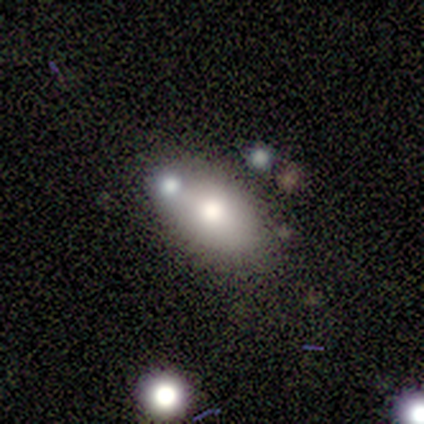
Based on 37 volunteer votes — Smooth or featured?
  - smooth: 76% *
  - featured or disk: 19%
  - star or artifact: 5%
How rounded?
  - in between: 89% *
  - round: 11%
  - cigar-shaped: 0%
Merging?
  - none: 66% *
  - minor disturbance: 26%
  - merger: 9%
  - major disturbance: 0%